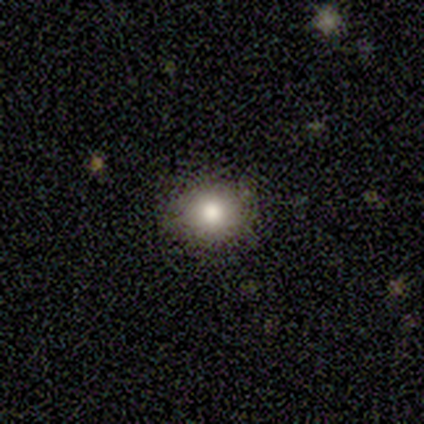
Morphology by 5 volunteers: Volunteers were most divided on "smooth or featured": star or artifact: 60%, smooth: 40%, featured or disk: 0%.